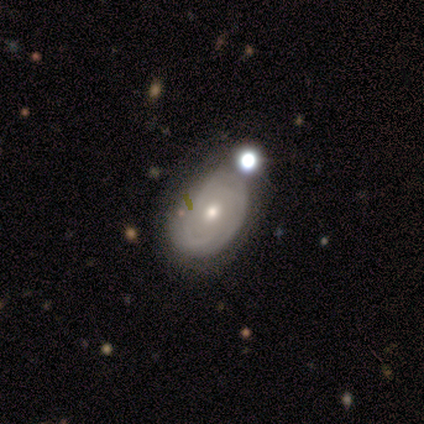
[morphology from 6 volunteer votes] smooth_or_featured: featured or disk (p=1.00)
disk_edge_on: no (p=0.83) [alt: yes p=0.17]
bar: no (p=0.80) [alt: weak p=0.20]
has_spiral_arms: yes (p=0.60) [alt: no p=0.40]
spiral_winding: loose (p=0.67) [alt: tight p=0.33]
spiral_arm_count: can't tell (p=1.00)
bulge_size: moderate (p=0.60) [alt: small p=0.40]
merging: none (p=0.33) [tied with: minor disturbance p=0.33, merger p=0.33]